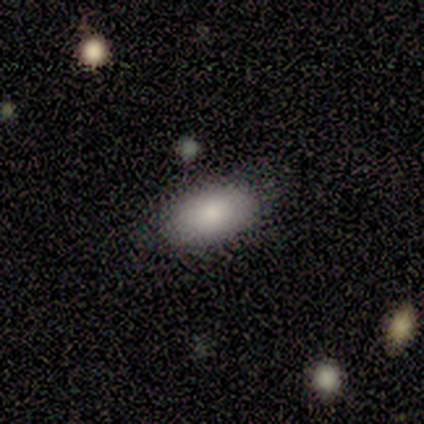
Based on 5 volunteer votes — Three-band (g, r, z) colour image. It shows a smooth galaxy with no disk features (100%) that is in between round and cigar-shaped (80%). Merging: none (60%).